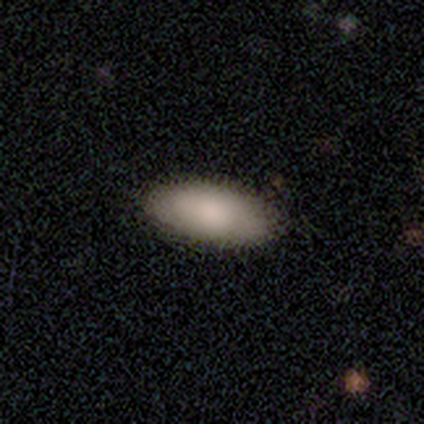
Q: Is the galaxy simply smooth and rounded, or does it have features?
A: smooth — 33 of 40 (82%).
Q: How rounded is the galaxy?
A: in between — 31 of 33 (94%).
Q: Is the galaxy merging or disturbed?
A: none — 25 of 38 (66%).